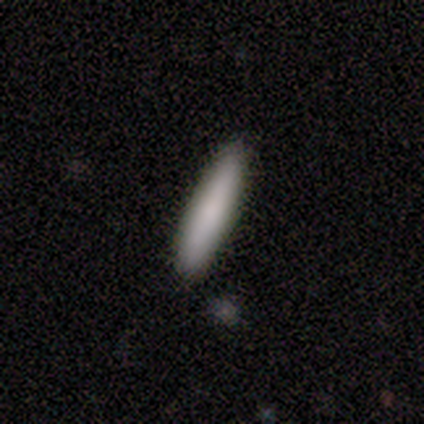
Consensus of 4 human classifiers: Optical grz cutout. It shows a smooth galaxy with no disk features (75%) that is in between round and cigar-shaped (67%). Merging: none (50%, tied with minor disturbance).